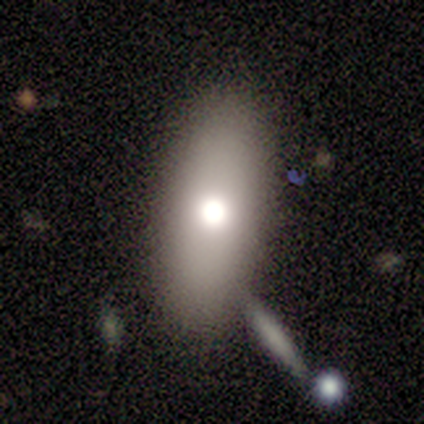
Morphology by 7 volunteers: Smooth or featured: smooth — 86% (featured or disk — 14%)
How rounded: in between — 100%
Merging: none — 71% (minor disturbance — 14%)